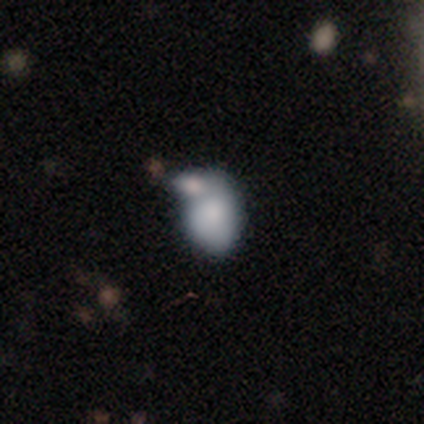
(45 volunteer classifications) Morphology: type=smooth (71%); roundness=in between (88%); merging=merger (57%).